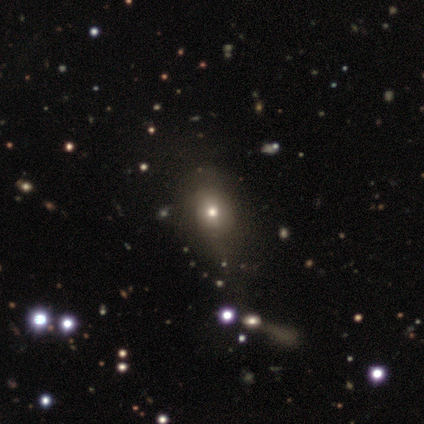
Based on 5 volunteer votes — smooth 40% (tied), featured or disk 40% (tied), star or artifact 20%. Down the decision tree: how rounded — round (100%); merging — none (100%).